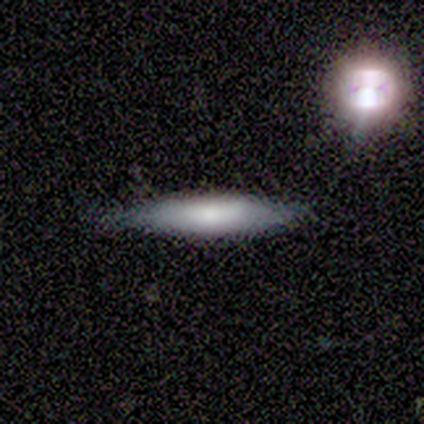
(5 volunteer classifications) featured or disk 80%, smooth 20%, star or artifact 0%. Down the decision tree: edge-on disk — yes (100%); edge-on bulge — boxy (50%); merging — none (60%).